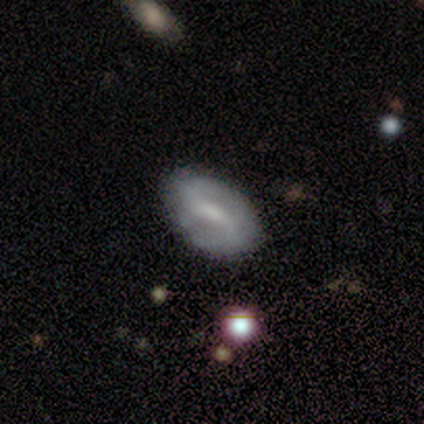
Volunteers were most divided on "spiral winding": medium: 45%, loose: 36%, tight: 18%. Remaining: edge-on disk — no (100%); spiral arm count — 2 (95%); spiral arms — yes (79%); smooth or featured — featured or disk (72%); bar — weak (71%); merging — none (67%); bulge size — small (43%).